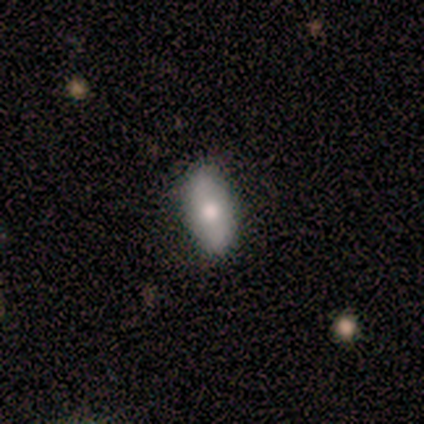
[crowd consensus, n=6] Smooth or featured? 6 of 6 (100%) said smooth. How rounded? 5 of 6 (83%) said in between. Merging? 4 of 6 (67%) said none.